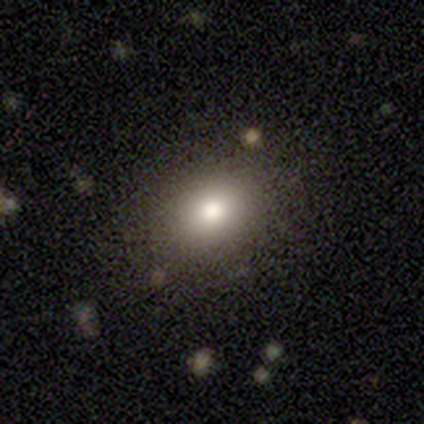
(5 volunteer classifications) This is clearly a smooth galaxy (80%). How rounded: possibly round (50%, tied with in between). Merging: likely none (75%).